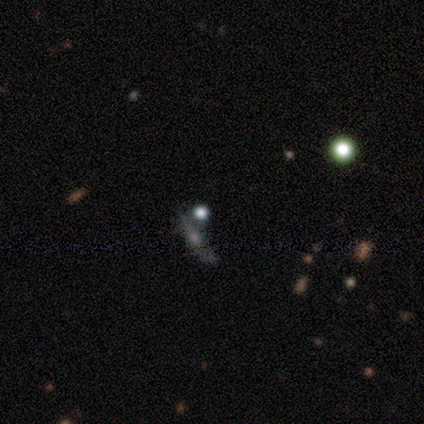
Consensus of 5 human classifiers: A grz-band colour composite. It shows a star or artifact, not a galaxy (60%).